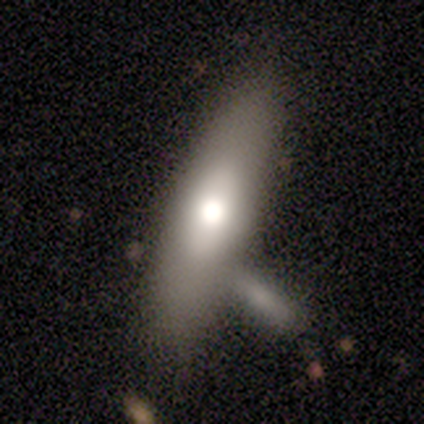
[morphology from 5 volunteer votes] This is clearly a smooth galaxy (100%). How rounded: likely cigar-shaped (60%). Merging: clearly none (100%).